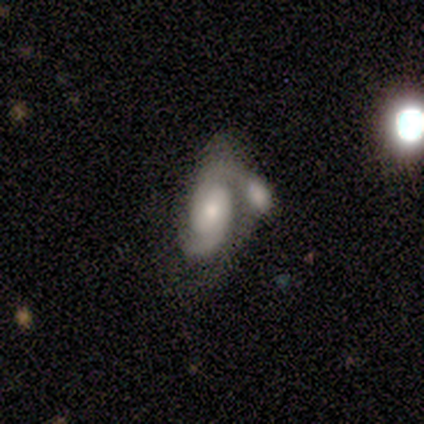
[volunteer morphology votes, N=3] A featured or disk galaxy (67%) with a weak bar (50%, tied with no), 2 (100%) tight (50%, tied with medium) spiral arms (100%) and a moderate central bulge (100%).

Vote fractions:
- Smooth or featured? featured or disk: 67% / smooth: 33% / star or artifact: 0%
- Edge-on disk? no: 100% / yes: 0%
- Bar? weak: 50% (tied) / no: 50% (tied) / strong: 0%
- Spiral arms? yes: 100% / no: 0%
- Spiral winding? tight: 50% (tied) / medium: 50% (tied) / loose: 0%
- Spiral arm count? 2: 100% / 1: 0% / 3: 0% / 4: 0% / more than 4: 0% / can't tell: 0%
- Bulge size? moderate: 100% / dominant: 0% / large: 0% / small: 0% / none: 0%
- Merging? none: 33% (tied) / major disturbance: 33% (tied) / merger: 33% (tied) / minor disturbance: 0%